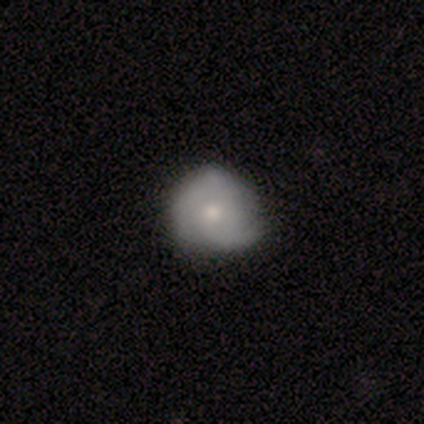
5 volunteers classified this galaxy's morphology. Overall: featured or disk (60%; smooth 40%). Edge-on disk: no (100%). Bar: no (100%). Spiral arms: yes (100%). Spiral arm count: 3 (67%; can't tell 33%). Spiral winding: medium (67%; tight 33%). Bulge size: large (33%, tied with moderate and small). Merging: none (80%).